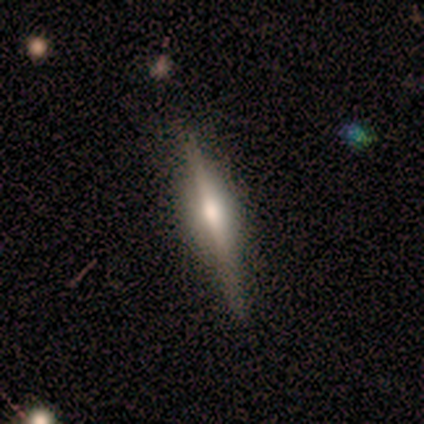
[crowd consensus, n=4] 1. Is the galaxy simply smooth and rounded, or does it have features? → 75% featured or disk, 25% smooth, 0% star or artifact.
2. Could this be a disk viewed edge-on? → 100% yes, 0% no.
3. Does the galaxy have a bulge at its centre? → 67% rounded, 33% boxy, 0% none.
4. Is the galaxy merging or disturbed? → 75% none, 25% minor disturbance, 0% major disturbance, 0% merger.